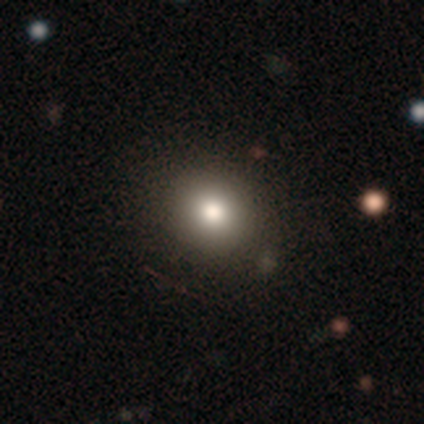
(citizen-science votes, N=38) Smooth or featured: smooth — 84% (star or artifact — 11%)
How rounded: round — 88% (in between — 12%)
Merging: none — 74% (merger — 6%)